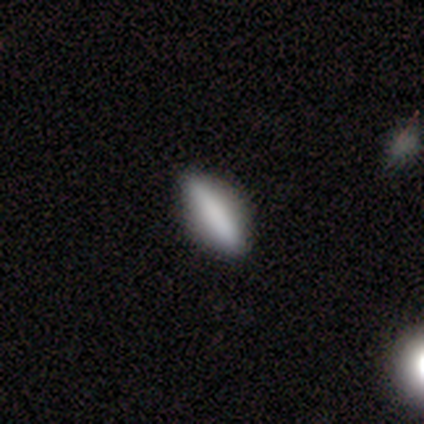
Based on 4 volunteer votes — A star or artifact, not a galaxy (50%).

Vote fractions:
- Smooth or featured? star or artifact: 50% / smooth: 25% / featured or disk: 25%